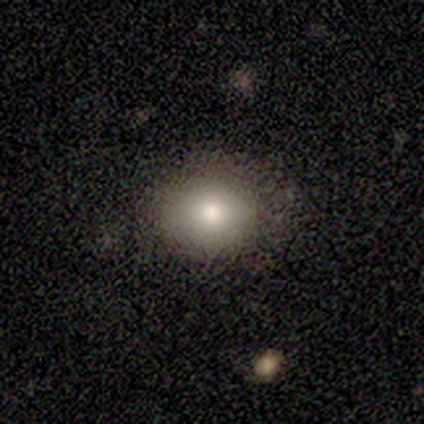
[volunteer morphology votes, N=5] Smooth or featured?
  - smooth: 60% *
  - featured or disk: 20%
  - star or artifact: 20%
How rounded?
  - round: 67% *
  - in between: 33%
  - cigar-shaped: 0%
Merging?
  - none: 100% *
  - minor disturbance: 0%
  - major disturbance: 0%
  - merger: 0%